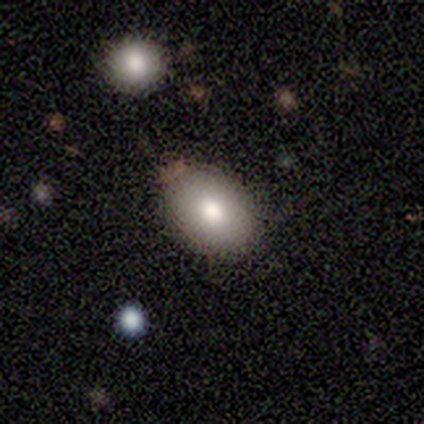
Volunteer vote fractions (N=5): A smooth galaxy with no disk features (100%) that is in between round and cigar-shaped (100%).

Vote fractions:
- Smooth or featured? smooth: 100% / featured or disk: 0% / star or artifact: 0%
- How rounded? in between: 100% / round: 0% / cigar-shaped: 0%
- Merging? none: 80% / minor disturbance: 20% / major disturbance: 0% / merger: 0%